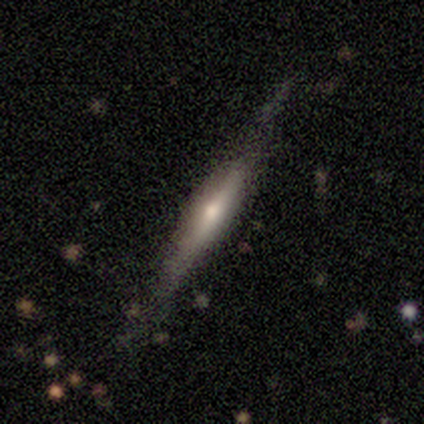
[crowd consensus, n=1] Q: Smooth or featured?
A: featured or disk (100%)
Q: Edge-on disk?
A: yes (100%)
Q: Edge-on bulge?
A: rounded (100%)
Q: Merging?
A: none (100%)